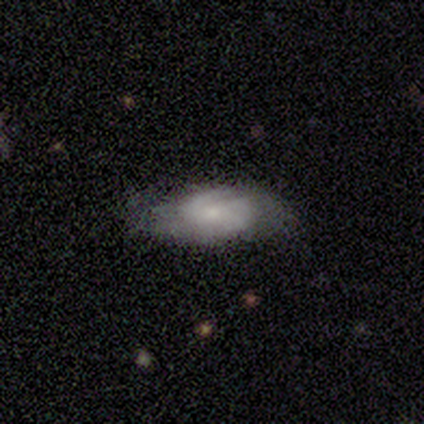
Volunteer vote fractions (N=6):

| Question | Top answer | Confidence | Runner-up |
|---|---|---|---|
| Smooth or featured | featured or disk | 67% | smooth (33%) |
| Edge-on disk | no | 100% | — |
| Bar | no | 75% | weak (25%) |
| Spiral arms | yes | 75% | no (25%) |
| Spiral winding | tight | 33% | tied: medium (33%), loose (33%) |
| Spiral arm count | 2 | 67% | 4 (33%) |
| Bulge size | small | 75% | moderate (25%) |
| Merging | none | 67% | minor disturbance (17%) |